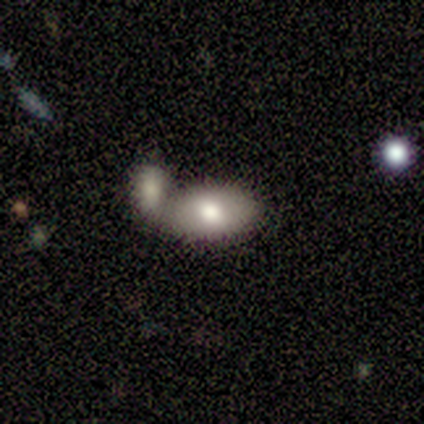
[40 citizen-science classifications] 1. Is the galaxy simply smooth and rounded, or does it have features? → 75% smooth, 25% featured or disk, 0% star or artifact.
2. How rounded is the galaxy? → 100% in between, 0% round, 0% cigar-shaped.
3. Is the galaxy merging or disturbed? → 50% merger, 32% none, 12% minor disturbance, 5% major disturbance.